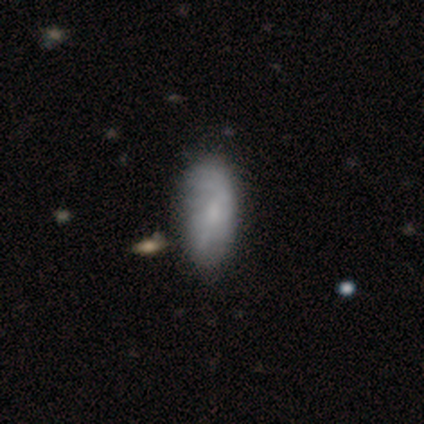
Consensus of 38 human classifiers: smooth 68%, featured or disk 32%, star or artifact 0%. Down the decision tree: how rounded — in between (81%); merging — minor disturbance (21%).